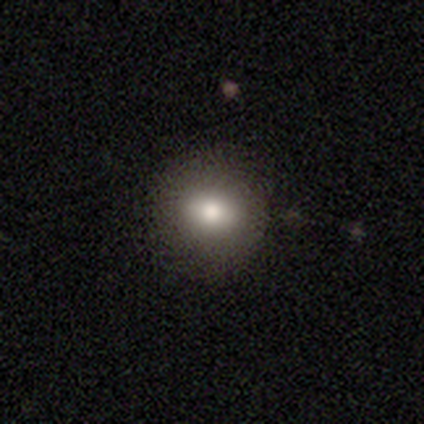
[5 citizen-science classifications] A smooth galaxy with no disk features (80%) that is round (75%). Merging: none (100%).